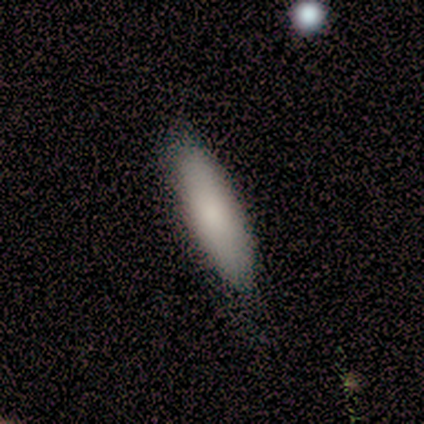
Smooth or featured: smooth — 92% (featured or disk — 8%)
How rounded: in between — 53% (cigar-shaped — 47%)
Merging: none — 49% (minor disturbance — 13%)